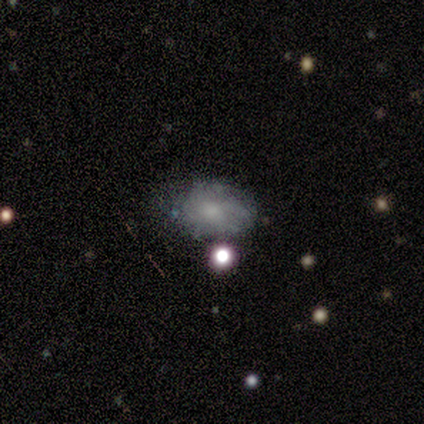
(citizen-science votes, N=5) Q: Smooth or featured?
A: smooth (80%); runner-up: star or artifact (20%)
Q: How rounded?
A: in between (100%)
Q: Merging?
A: none (75%); runner-up: minor disturbance (25%)